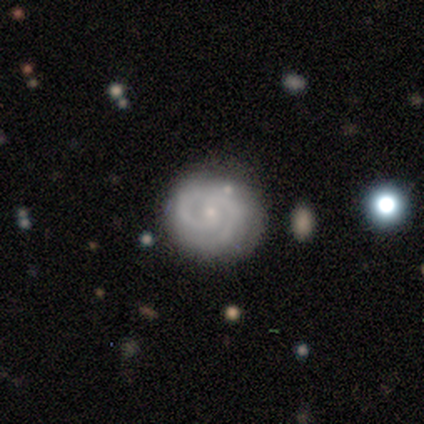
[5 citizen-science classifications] smooth-or-featured: featured or disk: 100% | smooth: 0% | star or artifact: 0%
  disk-edge-on: no: 100% | yes: 0%
    bar: no: 60% | weak: 40% | strong: 0%
    has-spiral-arms: yes: 100% | no: 0%
      spiral-winding: tight: 60% | medium: 40% | loose: 0%
      spiral-arm-count: 2: 100% | 1: 0% | 3: 0% | 4: 0% | more than 4: 0% | can't tell: 0%
    bulge-size: small: 100% | dominant: 0% | large: 0% | moderate: 0% | none: 0%
  merging: none: 80% | minor disturbance: 20% | major disturbance: 0% | merger: 0%